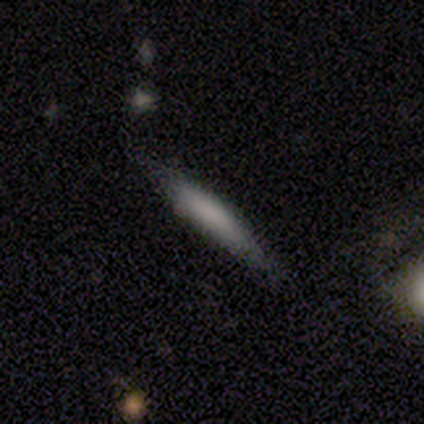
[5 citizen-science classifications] Smooth or featured? 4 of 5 (80%) said smooth. How rounded? 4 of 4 (100%) said cigar-shaped. Merging? 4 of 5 (80%) said none.